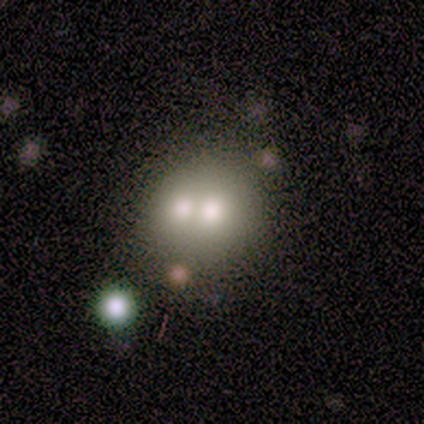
This is likely a smooth galaxy (60%). How rounded: clearly round (100%). Merging: clearly merger (100%).